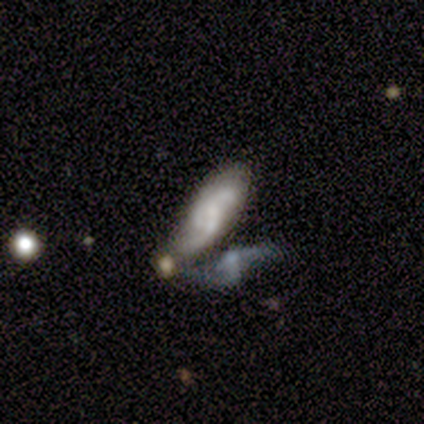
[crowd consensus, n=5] Q: Smooth or featured?
A: featured or disk (100%)
Q: Edge-on disk?
A: no (100%)
Q: Bar?
A: no (60%); runner-up: weak (40%)
Q: Spiral arms?
A: yes (100%)
Q: Spiral winding?
A: medium (40%); tied with: loose (40%)
Q: Spiral arm count?
A: 2 (80%); runner-up: can't tell (20%)
Q: Bulge size?
A: small (60%); runner-up: moderate (40%)
Q: Merging?
A: none (40%); tied with: merger (40%)